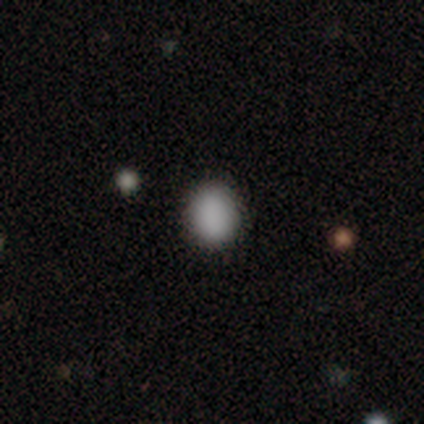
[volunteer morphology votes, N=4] Smooth or featured? smooth (100%)
How rounded? round (75%)
Merging? none (100%)